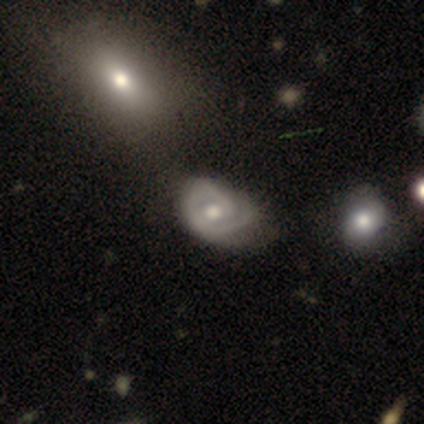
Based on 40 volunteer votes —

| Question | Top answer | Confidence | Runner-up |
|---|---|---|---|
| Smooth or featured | featured or disk | 80% | smooth (12%) |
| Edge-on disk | no | 94% | yes (6%) |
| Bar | no | 63% | weak (37%) |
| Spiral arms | yes | 87% | no (13%) |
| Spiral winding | tight | 69% | medium (19%) |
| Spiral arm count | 1 | 42% | tied: 2 (42%) |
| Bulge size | moderate | 70% | small (20%) |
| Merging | minor disturbance | 43% | none (35%) |